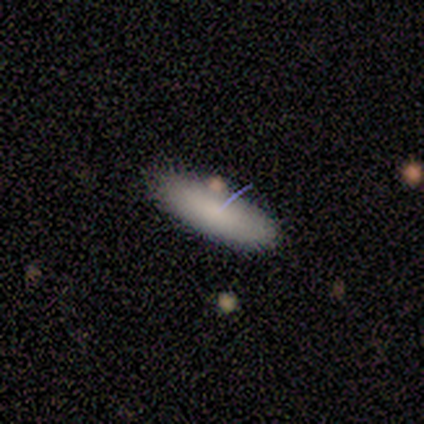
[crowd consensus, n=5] This is clearly a smooth galaxy (80%). How rounded: possibly in between (50%, tied with cigar-shaped). Merging: likely none (60%).